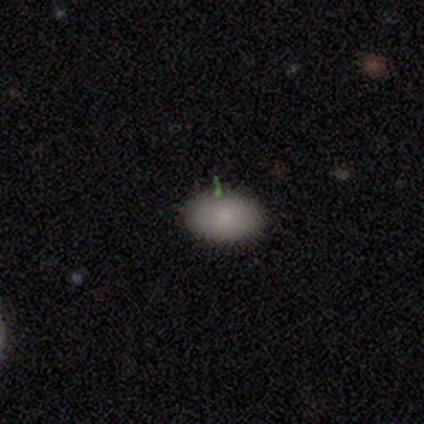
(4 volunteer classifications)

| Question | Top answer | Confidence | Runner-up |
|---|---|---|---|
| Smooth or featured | smooth | 100% | — |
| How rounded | in between | 75% | round (25%) |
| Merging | none | 75% | minor disturbance (25%) |